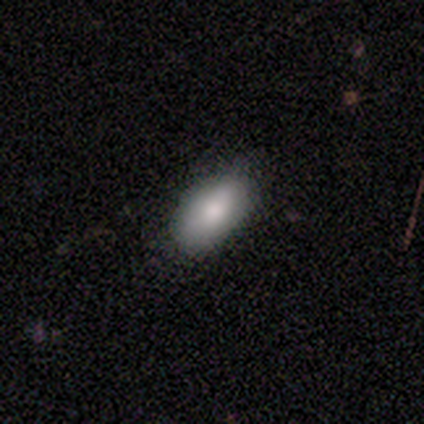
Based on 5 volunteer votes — This is clearly a smooth galaxy (100%). How rounded: clearly in between (80%). Merging: clearly none (100%).